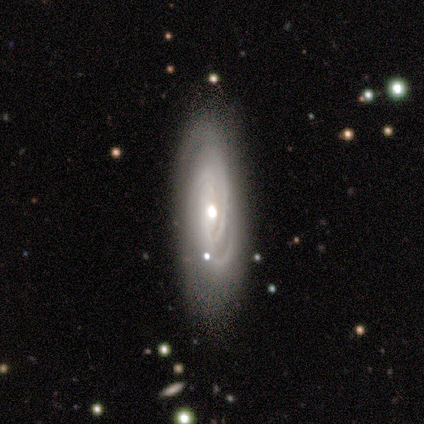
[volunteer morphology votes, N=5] type=featured or disk (100%); edge-on=no (60%); bar=no (100%); spiral arms=yes (67%); winding=tight (50%, tied with medium); arm count=2 (50%, tied with can't tell); bulge=moderate (67%); merging=none (100%).